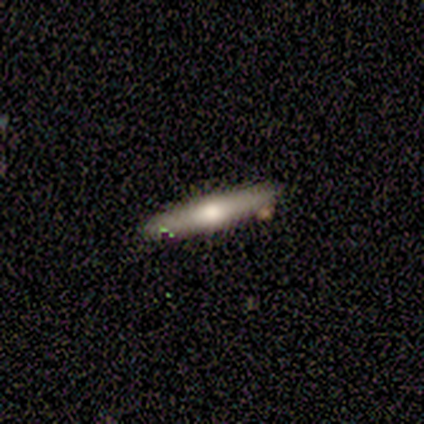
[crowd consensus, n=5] Volunteers were most divided on "smooth or featured": featured or disk: 60%, smooth: 40%, star or artifact: 0%. More confident: edge-on disk — yes (100%); merging — none (100%); edge-on bulge — rounded (67%).